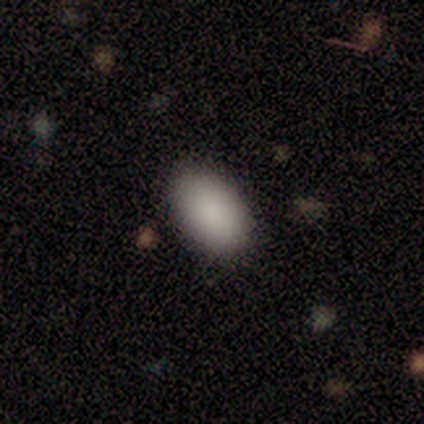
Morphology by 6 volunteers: smooth_or_featured: smooth (p=0.83) [alt: featured or disk p=0.17]
how_rounded: in between (p=1.00)
merging: none (p=1.00)